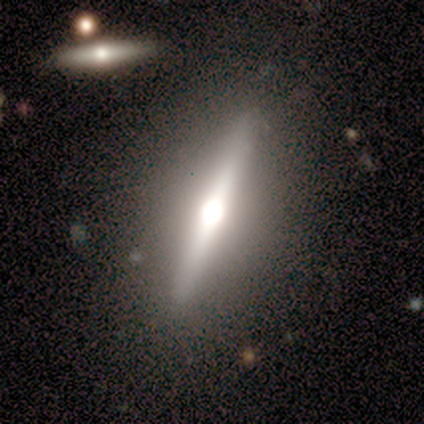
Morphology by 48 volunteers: Smooth or featured: featured or disk — 79% (smooth — 15%)
Edge-on disk: yes — 87% (no — 13%)
Edge-on bulge: rounded — 94% (boxy — 6%)
Merging: none — 82% (minor disturbance — 13%)